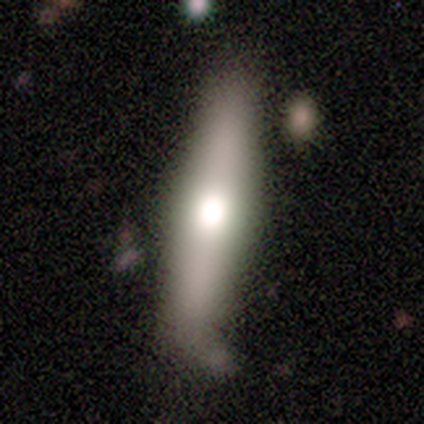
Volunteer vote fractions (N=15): Smooth or featured? 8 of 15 (53%) said featured or disk. Edge-on disk? 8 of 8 (100%) said yes. Edge-on bulge? 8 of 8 (100%) said rounded. Merging? 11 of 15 (73%) said none.